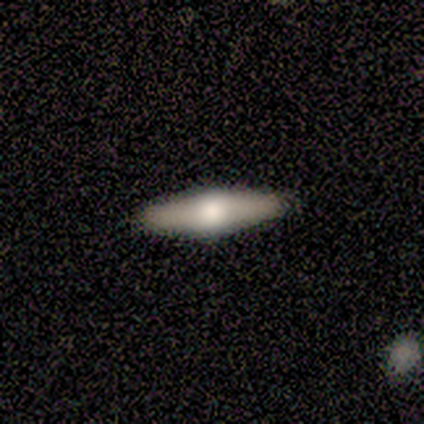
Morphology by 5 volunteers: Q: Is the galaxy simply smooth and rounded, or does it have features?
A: smooth — 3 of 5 (60%).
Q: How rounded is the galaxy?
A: cigar-shaped — 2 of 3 (67%).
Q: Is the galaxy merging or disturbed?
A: none — 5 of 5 (100%).